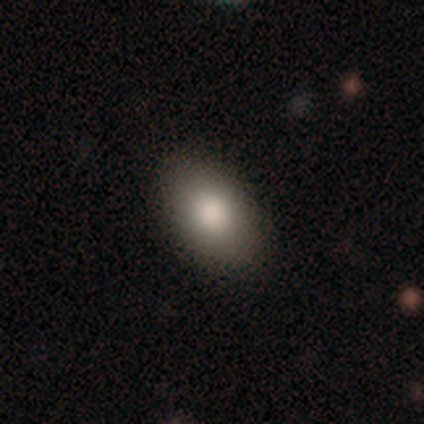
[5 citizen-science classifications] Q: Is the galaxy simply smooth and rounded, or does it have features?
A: smooth — 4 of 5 (80%).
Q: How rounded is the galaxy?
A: in between — 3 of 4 (75%).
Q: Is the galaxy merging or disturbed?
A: none — 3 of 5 (60%).